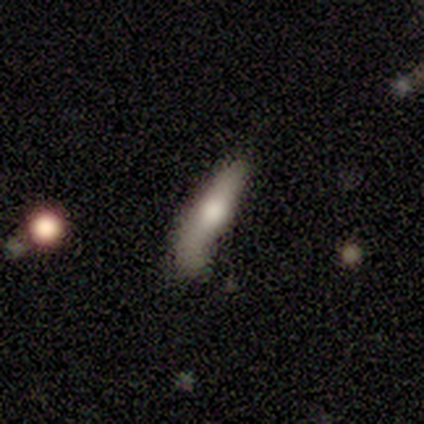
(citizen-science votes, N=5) A smooth galaxy with no disk features (60%) that is cigar-shaped (100%). Merging: none (80%).